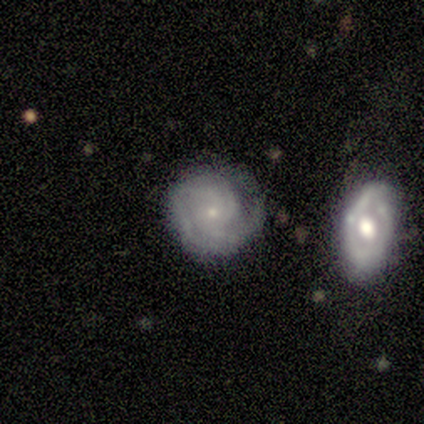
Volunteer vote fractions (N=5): Smooth or featured?
  - featured or disk: 100% *
  - smooth: 0%
  - star or artifact: 0%
Edge-on disk?
  - no: 100% *
  - yes: 0%
Bar?
  - no: 100% *
  - strong: 0%
  - weak: 0%
Spiral arms?
  - yes: 100% *
  - no: 0%
Spiral winding?
  - tight: 80% *
  - medium: 20%
  - loose: 0%
Spiral arm count?
  - can't tell: 40% *
  - 2: 20%
  - 3: 20%
  - 4: 20%
  - 1: 0%
  - more than 4: 0%
Bulge size?
  - small: 100% *
  - dominant: 0%
  - large: 0%
  - moderate: 0%
  - none: 0%
Merging?
  - none: 60% *
  - minor disturbance: 20%
  - merger: 20%
  - major disturbance: 0%